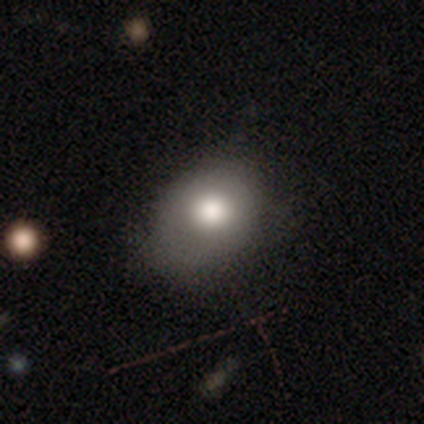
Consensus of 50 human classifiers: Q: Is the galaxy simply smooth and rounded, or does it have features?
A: smooth — 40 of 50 (80%).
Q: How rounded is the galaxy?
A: round — 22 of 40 (55%).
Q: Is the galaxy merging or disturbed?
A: none — 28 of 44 (64%).